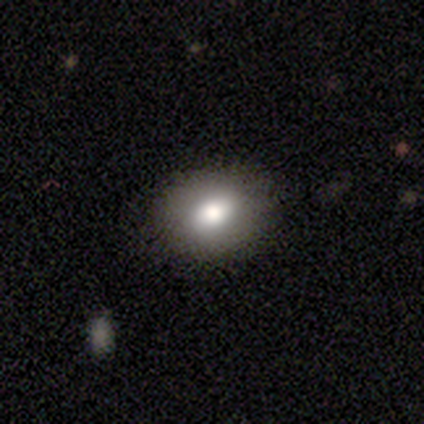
This appears to be a smooth galaxy with no disk features (60%) that is in between round and cigar-shaped (67%). Merging: none (100%).